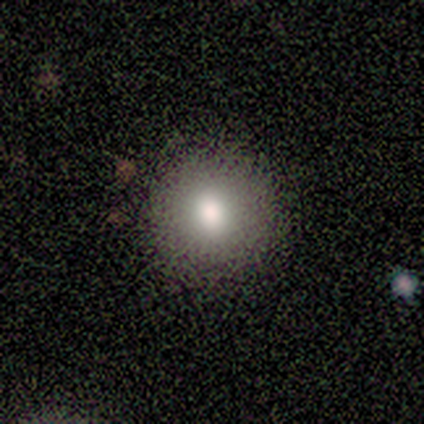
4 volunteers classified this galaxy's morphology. Smooth or featured? 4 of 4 (100%) said smooth. How rounded? 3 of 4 (75%) said round. Merging? 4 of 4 (100%) said none.